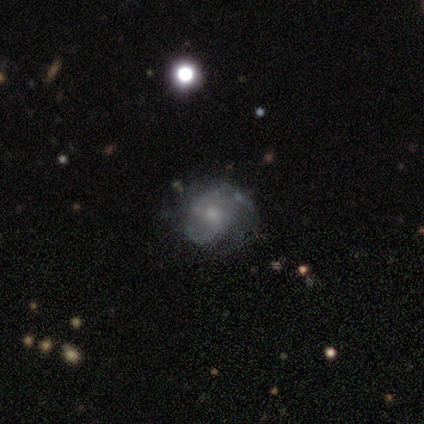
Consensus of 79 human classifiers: smooth_or_featured: featured or disk (p=0.78) [alt: smooth p=0.16]
disk_edge_on: no (p=0.98) [alt: yes p=0.02]
bar: no (p=0.70) [alt: weak p=0.26]
has_spiral_arms: yes (p=0.72) [alt: no p=0.28]
spiral_winding: medium (p=0.48) [alt: loose p=0.27]
spiral_arm_count: 2 (p=0.57) [alt: can't tell p=0.32]
bulge_size: small (p=0.54) [alt: moderate p=0.30]
merging: none (p=0.39) [alt: minor disturbance p=0.16]